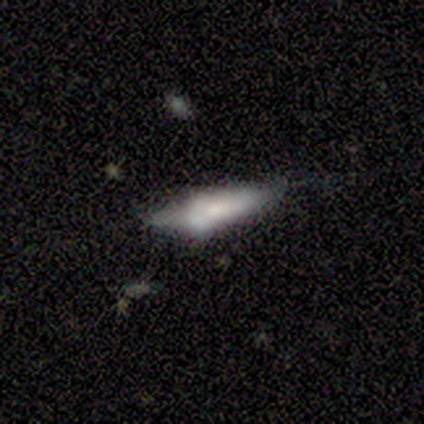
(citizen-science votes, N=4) Smooth or featured? 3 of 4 (75%) said featured or disk. Edge-on disk? 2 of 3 (67%) said yes. Edge-on bulge? 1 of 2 (50%, tied with rounded) said none. Merging? 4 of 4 (100%) said none.